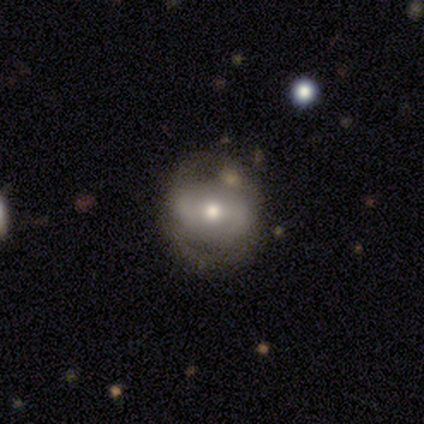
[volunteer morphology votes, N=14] Q: Smooth or featured?
A: featured or disk (64%); runner-up: smooth (29%)
Q: Edge-on disk?
A: no (100%)
Q: Bar?
A: weak (67%); runner-up: strong (22%)
Q: Spiral arms?
A: no (67%); runner-up: yes (33%)
Q: Bulge size?
A: moderate (67%); runner-up: small (33%)
Q: Merging?
A: none (69%); runner-up: major disturbance (15%)